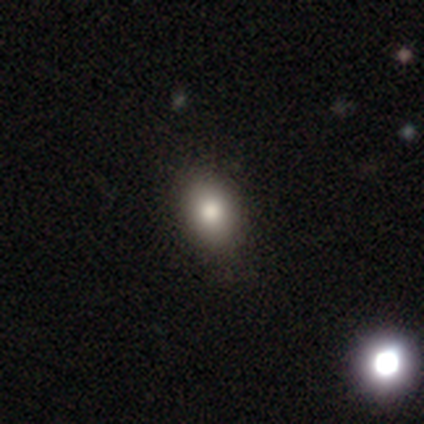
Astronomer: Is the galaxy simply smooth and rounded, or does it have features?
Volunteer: smooth — 80%.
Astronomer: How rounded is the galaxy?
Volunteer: in between — 75%.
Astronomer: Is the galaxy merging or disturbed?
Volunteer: none — 100%.